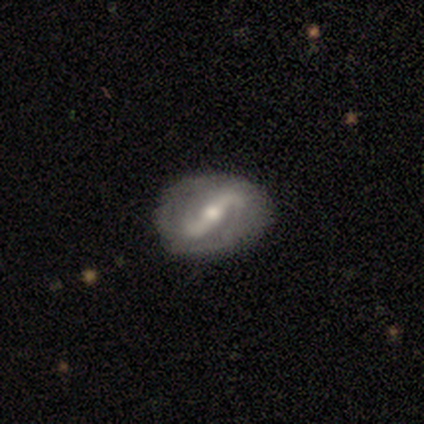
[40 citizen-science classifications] This is clearly a featured or disk galaxy (88%). It is clearly not viewed edge-on (97%). Bar: likely strong (79%). Spiral arm pattern: clearly yes (85%). Spiral arm count: clearly 2 (86%). Spiral winding: possibly loose (48%). Central bulge: likely moderate (76%). Merging: possibly none (51%).